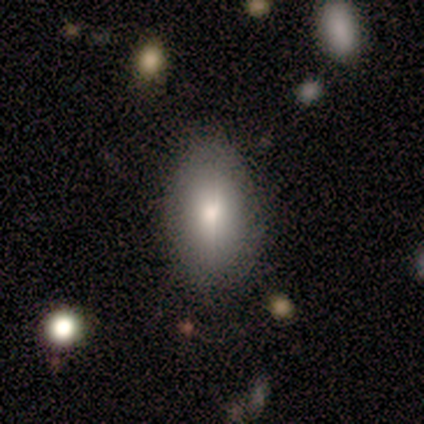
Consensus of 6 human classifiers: A smooth galaxy with no disk features (50%) that is in between round and cigar-shaped (100%).

Vote fractions:
- Smooth or featured? smooth: 50% / star or artifact: 33% / featured or disk: 17%
- How rounded? in between: 100% / round: 0% / cigar-shaped: 0%
- Merging? none: 75% / minor disturbance: 25% / major disturbance: 0% / merger: 0%